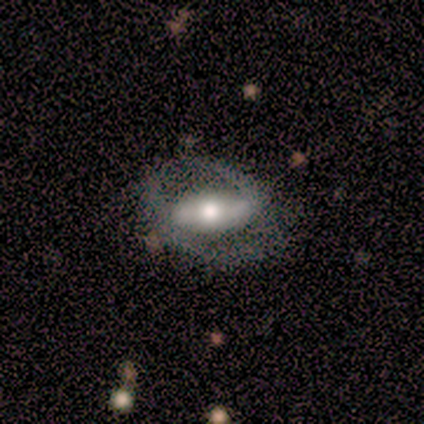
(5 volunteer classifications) smooth-or-featured: featured or disk: 80% | smooth: 20% | star or artifact: 0%
  disk-edge-on: yes: 50% (tied) | no: 50% (tied)
    edge-on-bulge: rounded: 100% | boxy: 0% | none: 0%
  merging: none: 80% | major disturbance: 20% | minor disturbance: 0% | merger: 0%